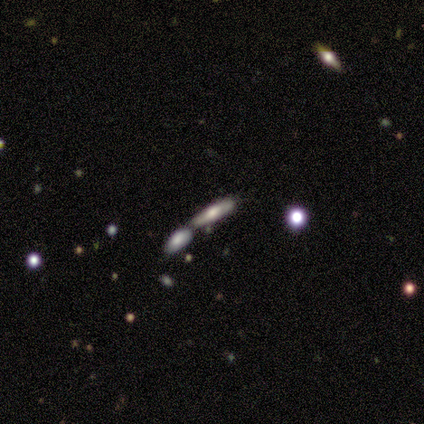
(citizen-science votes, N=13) Overall: smooth (46%, tied with featured or disk). How rounded: in between (50%, tied with cigar-shaped). Merging: merger (58%; none 42%).